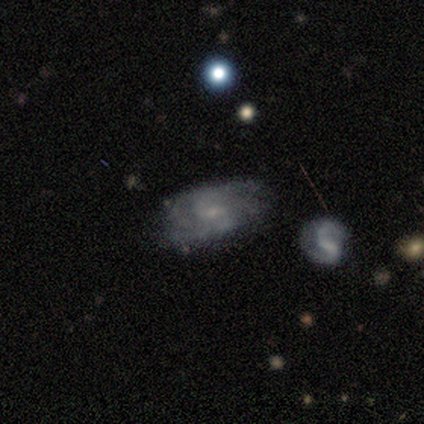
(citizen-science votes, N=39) Volunteers were most divided on "spiral arm count" (2-way tie): 2: 48%, can't tell: 48%, 3: 5%, 1: 0%, 4: 0%, more than 4: 0%. More confident: edge-on disk — no (97%); smooth or featured — featured or disk (77%); spiral arms — yes (72%); bulge size — small (66%); spiral winding — medium (57%); merging — none (57%); bar — no (55%).